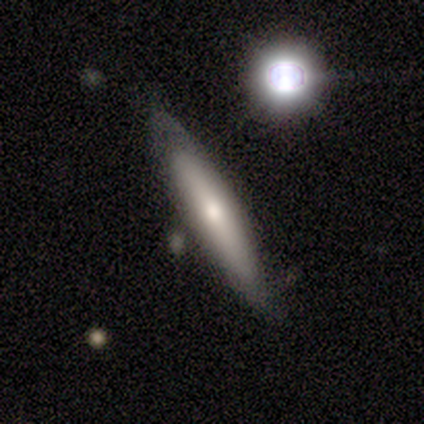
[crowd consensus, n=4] Volunteers were most divided on "smooth or featured": smooth: 50%, featured or disk: 25%, star or artifact: 25%. More confident: how rounded — cigar-shaped (100%); merging — minor disturbance (67%).